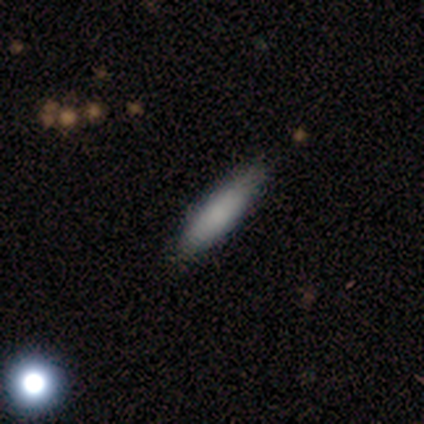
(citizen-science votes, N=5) A smooth galaxy with no disk features (80%) that is cigar-shaped (75%). Merging: none (100%).